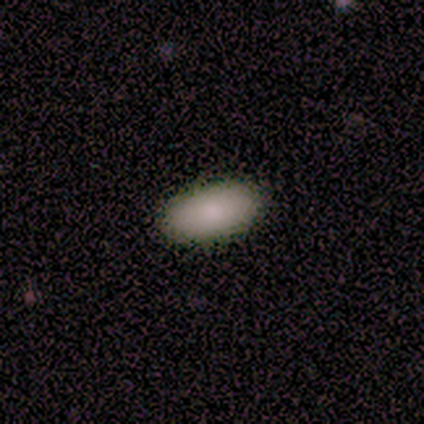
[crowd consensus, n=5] This is clearly a smooth galaxy (100%). How rounded: clearly in between (100%). Merging: clearly none (80%).